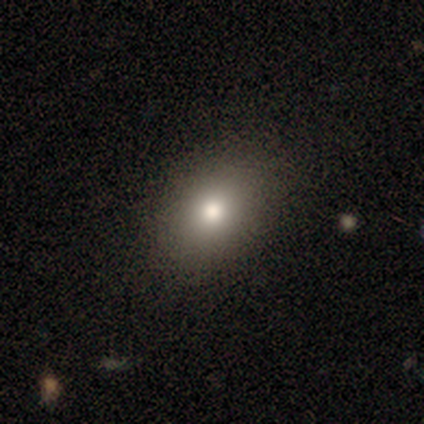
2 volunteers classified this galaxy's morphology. This is clearly a smooth galaxy (100%). How rounded: clearly in between (100%). Merging: possibly none (50%, tied with minor disturbance).